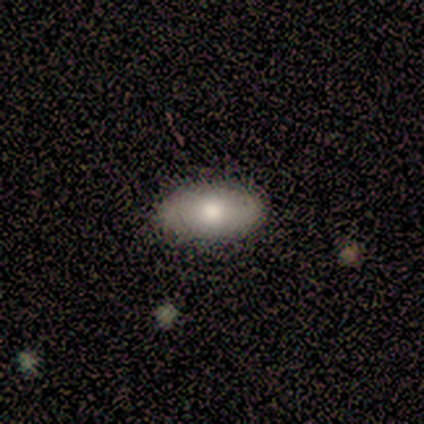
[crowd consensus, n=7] Smooth or featured?
  - smooth: 86% *
  - featured or disk: 14%
  - star or artifact: 0%
How rounded?
  - in between: 100% *
  - round: 0%
  - cigar-shaped: 0%
Merging?
  - none: 86% *
  - minor disturbance: 14%
  - major disturbance: 0%
  - merger: 0%